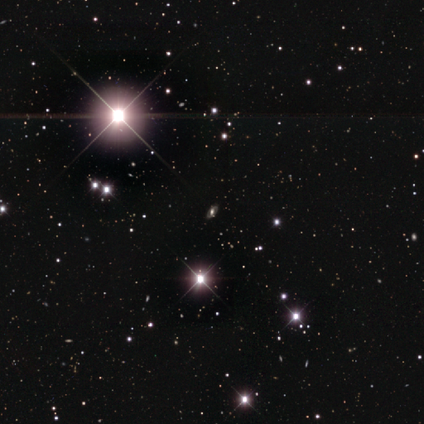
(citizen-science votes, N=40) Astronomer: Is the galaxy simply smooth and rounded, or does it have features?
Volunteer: star or artifact — 57% (runner-up: featured or disk, 32%).